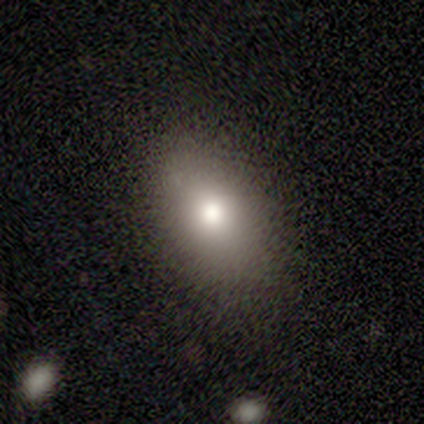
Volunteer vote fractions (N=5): Morphology: type=smooth (100%); roundness=in between (80%); merging=none (80%).